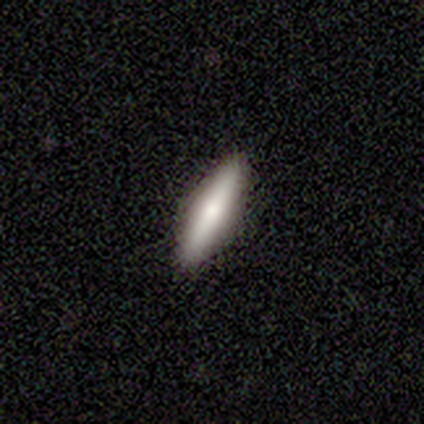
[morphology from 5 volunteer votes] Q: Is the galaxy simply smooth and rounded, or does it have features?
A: smooth — 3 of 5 (60%).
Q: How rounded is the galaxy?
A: cigar-shaped — 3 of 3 (100%).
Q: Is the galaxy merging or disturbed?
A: none — 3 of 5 (60%).